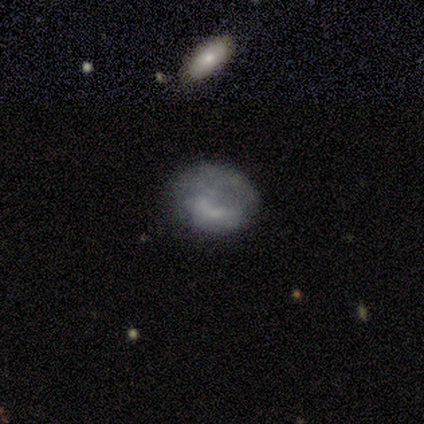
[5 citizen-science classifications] A smooth galaxy with no disk features (60%) that is round (67%).

Vote fractions:
- Smooth or featured? smooth: 60% / featured or disk: 40% / star or artifact: 0%
- How rounded? round: 67% / in between: 33% / cigar-shaped: 0%
- Merging? none: 40% / minor disturbance: 20% / major disturbance: 20% / merger: 20%